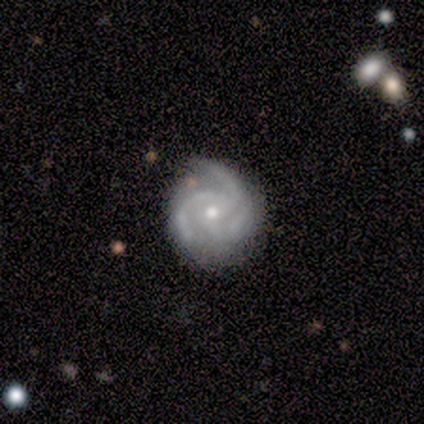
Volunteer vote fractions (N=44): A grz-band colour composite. It shows a featured or disk galaxy (95%) with no bar (80%), 3 (83%) medium (56%) spiral arms (100%) and a small central bulge (59%). Merging: none (79%).